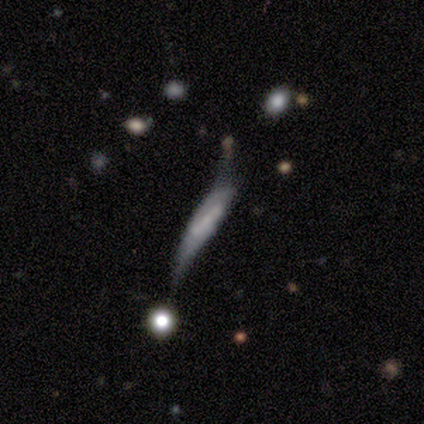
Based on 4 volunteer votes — Volunteers were most divided on "spiral arms" (2-way tie): yes: 50%, no: 50%; "bulge size" (2-way tie): moderate: 50%, small: 50%, dominant: 0%, large: 0%, none: 0%; "merging" (2-way tie): major disturbance: 50%, merger: 50%, none: 0%, minor disturbance: 0%. More confident: bar — weak (100%); spiral winding — medium (100%); spiral arm count — 2 (100%); smooth or featured — featured or disk (75%); edge-on disk — no (67%).